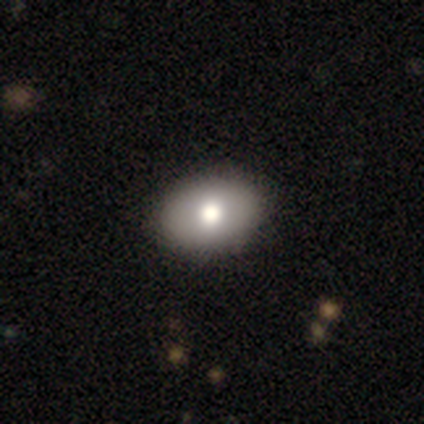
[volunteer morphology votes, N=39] This appears to be a smooth galaxy with no disk features (77%) that is in between round and cigar-shaped (77%). Merging: none (69%).